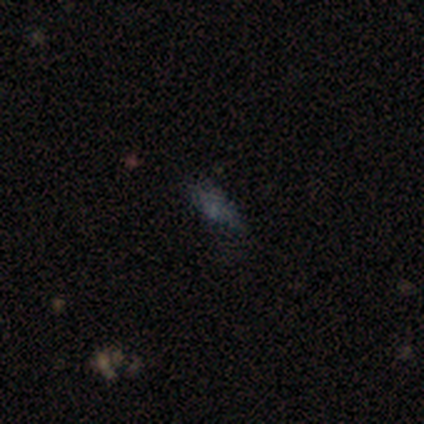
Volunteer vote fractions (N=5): smooth_or_featured: smooth (p=0.40) [tied with: star or artifact p=0.40]
how_rounded: in between (p=1.00)
merging: none (p=0.67) [alt: minor disturbance p=0.33]